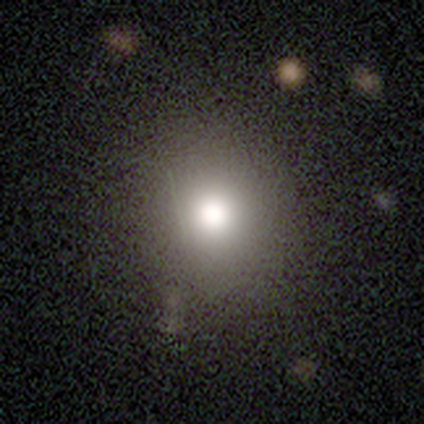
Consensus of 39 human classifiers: A smooth galaxy with no disk features (82%) that is round (88%). Merging: none (57%).